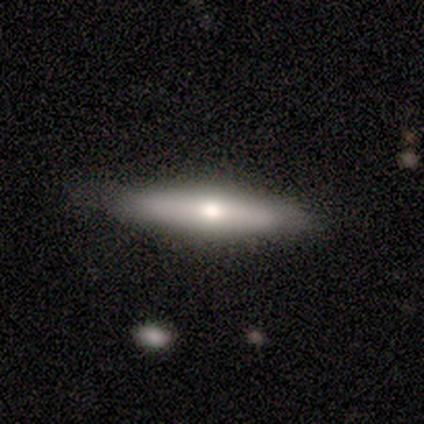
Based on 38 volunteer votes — Smooth or featured? smooth (58%)
How rounded? cigar-shaped (77%)
Merging? none (95%)